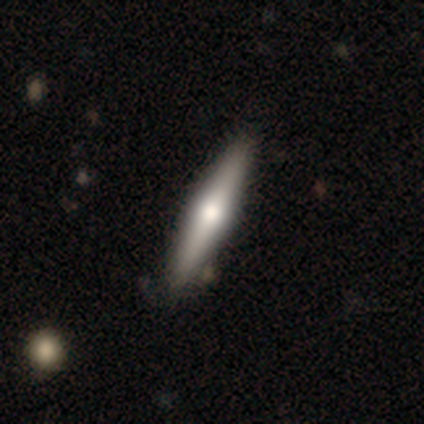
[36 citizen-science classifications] Morphology: type=featured or disk (44%); edge-on=yes (100%); edge-on bulge=rounded (94%); merging=none (87%).